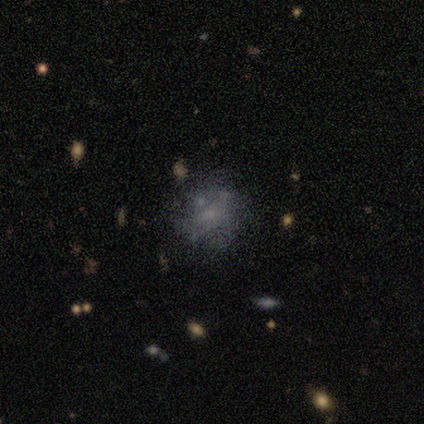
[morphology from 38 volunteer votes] Q: Smooth or featured?
A: featured or disk (47%); runner-up: smooth (32%)
Q: Edge-on disk?
A: no (94%); runner-up: yes (6%)
Q: Bar?
A: no (71%); runner-up: weak (29%)
Q: Spiral arms?
A: no (82%); runner-up: yes (18%)
Q: Bulge size?
A: none (47%); runner-up: small (41%)
Q: Merging?
A: none (60%); runner-up: minor disturbance (17%)